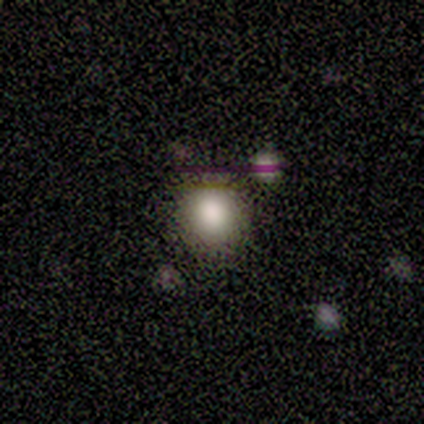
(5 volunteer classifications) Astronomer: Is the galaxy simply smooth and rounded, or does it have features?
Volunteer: smooth — 80%.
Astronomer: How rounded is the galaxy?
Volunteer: round — 100%.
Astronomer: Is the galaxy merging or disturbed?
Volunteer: none — 80%.